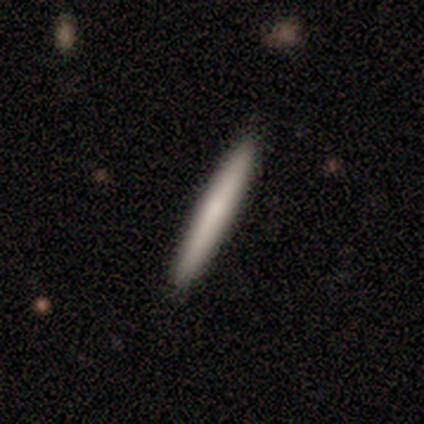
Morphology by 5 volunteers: This appears to be a smooth galaxy with no disk features (60%) that is cigar-shaped (100%). Merging: none (100%).